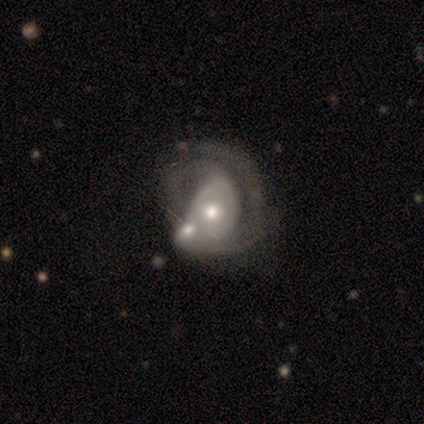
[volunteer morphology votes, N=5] This is clearly a featured or disk galaxy (80%). It is clearly not viewed edge-on (100%). Bar: likely no (75%). Spiral arm pattern: clearly yes (100%). Spiral arm count: possibly can't tell (50%). Spiral winding: possibly tight (50%, tied with medium). Central bulge: likely moderate (75%). Merging: possibly merger (50%).